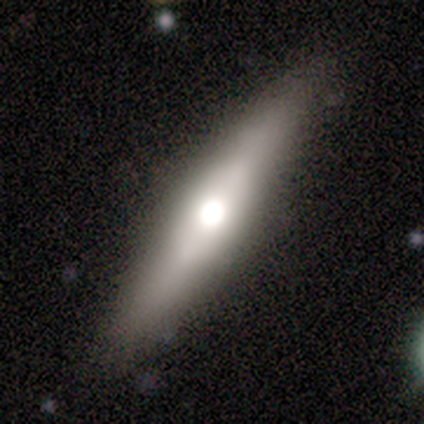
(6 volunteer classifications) Morphology: type=featured or disk (50%, tied with star or artifact); edge-on=yes (100%); edge-on bulge=rounded (67%); merging=none (100%).